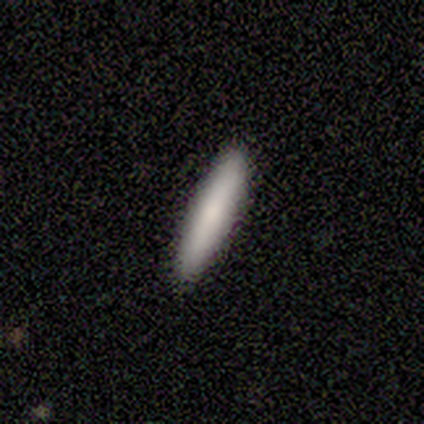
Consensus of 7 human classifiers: Morphology: type=smooth (86%); roundness=cigar-shaped (100%); merging=none (86%).